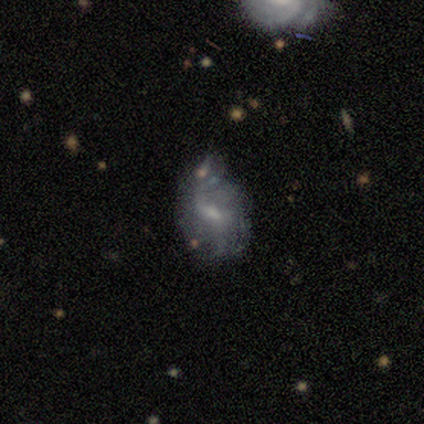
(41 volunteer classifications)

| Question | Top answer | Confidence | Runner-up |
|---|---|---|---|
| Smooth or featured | featured or disk | 80% | smooth (12%) |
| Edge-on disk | no | 100% | — |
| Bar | weak | 64% | no (21%) |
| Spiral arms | yes | 85% | no (15%) |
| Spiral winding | loose | 82% | tight (11%) |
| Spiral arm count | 2 | 57% | can't tell (25%) |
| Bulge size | small | 48% | moderate (30%) |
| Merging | minor disturbance | 37% | none (29%) |